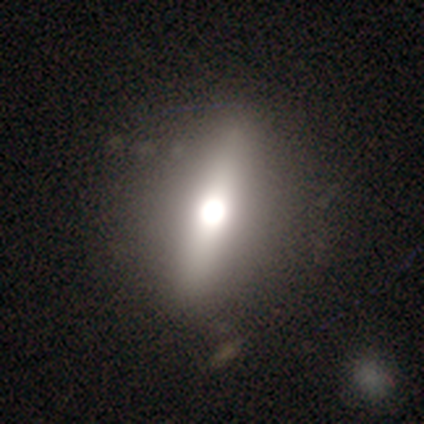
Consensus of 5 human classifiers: Smooth or featured? 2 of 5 (40%, tied with star or artifact) said featured or disk. Edge-on disk? 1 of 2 (50%, tied with no) said yes. Edge-on bulge? 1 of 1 (100%) said rounded. Merging? 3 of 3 (100%) said none.